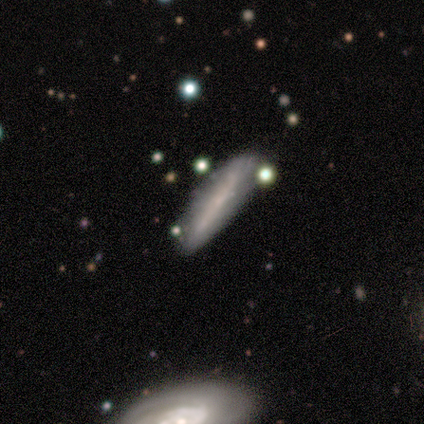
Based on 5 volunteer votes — smooth 80%, featured or disk 20%, star or artifact 0%. Down the decision tree: how rounded — cigar-shaped (100%); merging — none (40%, tied with minor disturbance).